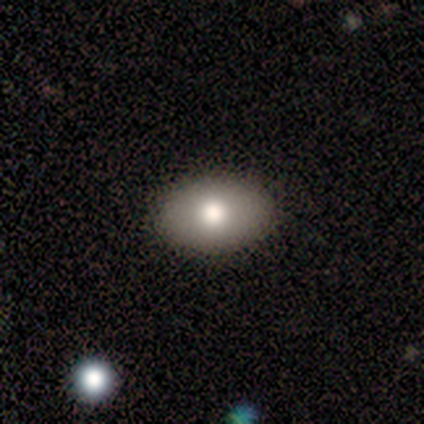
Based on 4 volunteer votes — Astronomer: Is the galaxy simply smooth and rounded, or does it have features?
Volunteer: smooth — 50%.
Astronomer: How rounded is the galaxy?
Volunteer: in between — 100%.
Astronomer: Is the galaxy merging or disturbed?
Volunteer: none — 100%.